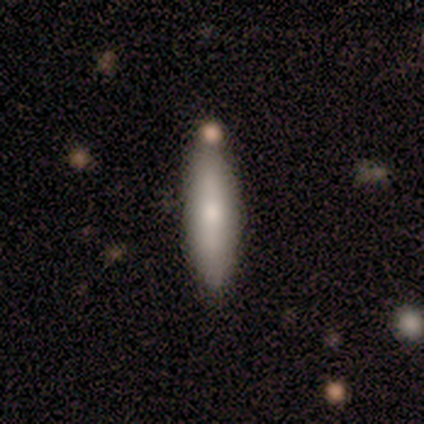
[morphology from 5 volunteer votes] Overall: featured or disk (60%; smooth 40%). Edge-on disk: yes (67%; no 33%). Edge-on bulge: none (50%, tied with rounded). Merging: none (60%; minor disturbance 20%).